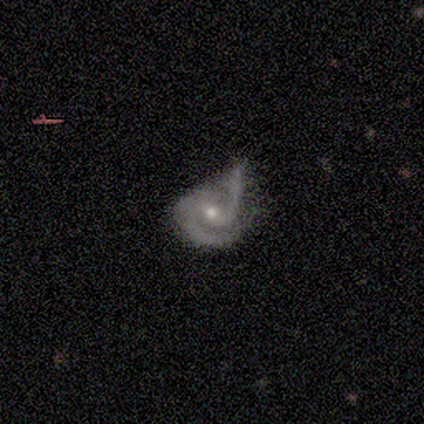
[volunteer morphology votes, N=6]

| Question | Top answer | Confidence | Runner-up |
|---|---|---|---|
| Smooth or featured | featured or disk | 100% | — |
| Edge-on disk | no | 100% | — |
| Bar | weak | 67% | no (33%) |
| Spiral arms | yes | 100% | — |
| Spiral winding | medium | 67% | tight (33%) |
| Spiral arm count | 2 | 67% | 1 (17%) |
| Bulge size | moderate | 50% | tied: small (50%) |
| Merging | major disturbance | 50% | none (33%) |